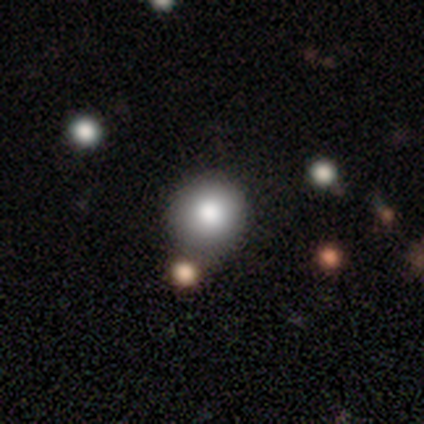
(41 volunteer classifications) A smooth galaxy with no disk features (85%) that is round (100%). Merging: none (56%).